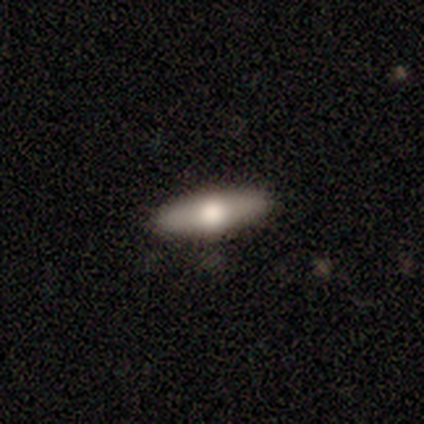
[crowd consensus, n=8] Smooth or featured: featured or disk — 50% (smooth — 25%)
Edge-on disk: yes — 100%
Edge-on bulge: rounded — 75% (none — 25%)
Merging: none — 83% (minor disturbance — 17%)